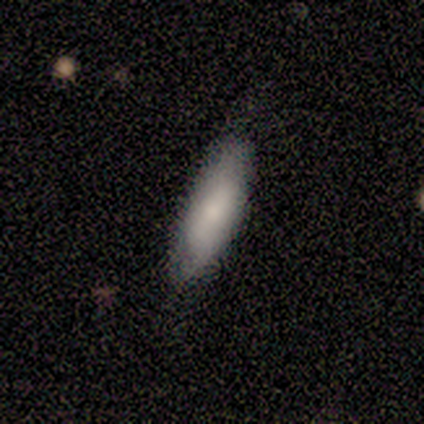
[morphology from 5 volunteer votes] A smooth galaxy with no disk features (60%) that is cigar-shaped (67%). Merging: minor disturbance (80%).